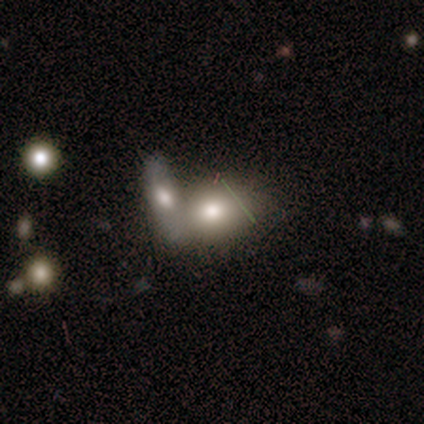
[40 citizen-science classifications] Q: Smooth or featured?
A: smooth (70%); runner-up: featured or disk (22%)
Q: How rounded?
A: in between (71%); runner-up: round (18%)
Q: Merging?
A: merger (59%); runner-up: none (24%)